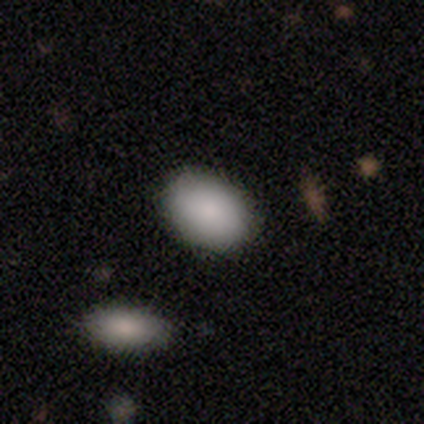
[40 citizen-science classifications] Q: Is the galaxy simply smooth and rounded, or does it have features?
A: smooth — 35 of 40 (88%).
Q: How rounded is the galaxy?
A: in between — 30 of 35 (86%).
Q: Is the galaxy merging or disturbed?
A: none — 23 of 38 (61%).